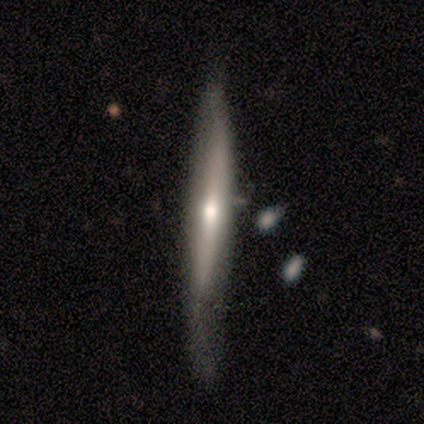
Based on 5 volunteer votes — This appears to be a featured or disk galaxy (60%) viewed edge-on (100%) with a rounded central bulge (67%). Merging: none (25%, tied with minor disturbance, major disturbance and merger).